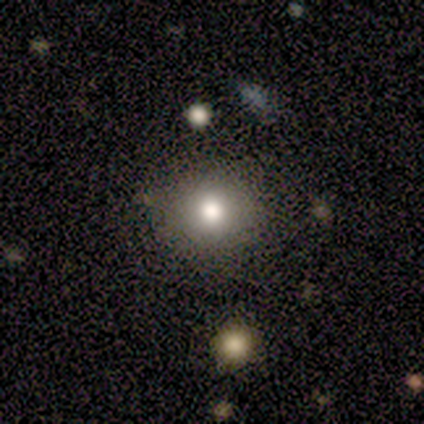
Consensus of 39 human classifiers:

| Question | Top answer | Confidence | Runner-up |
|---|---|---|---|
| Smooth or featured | smooth | 77% | featured or disk (15%) |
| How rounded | round | 90% | in between (10%) |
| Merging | none | 89% | minor disturbance (11%) |